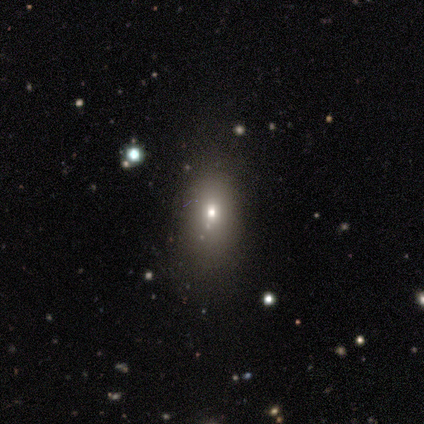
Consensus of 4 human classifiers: This appears to be a featured or disk galaxy (50%, tied with star or artifact) with no bar (100%), no spiral arms (100%) and a moderate central bulge (50%, tied with small). Merging: none (100%).